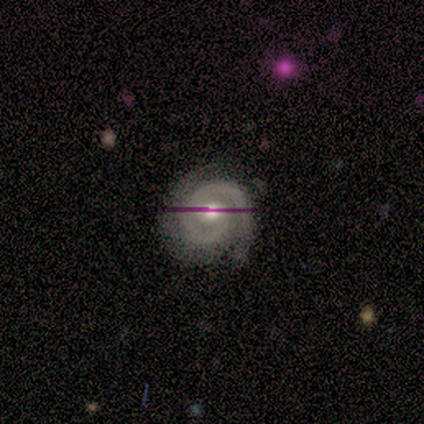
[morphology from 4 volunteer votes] type=featured or disk (75%); edge-on=no (100%); bar=no (67%); spiral arms=yes (100%); winding=tight (67%); arm count=2 (100%); bulge=moderate (67%); merging=none (75%).